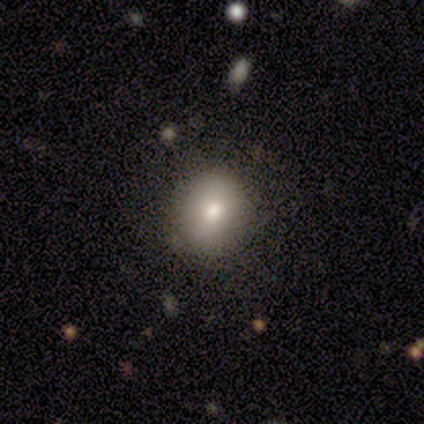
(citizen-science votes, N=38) A smooth galaxy with no disk features (79%) that is round (80%). Merging: none (82%).